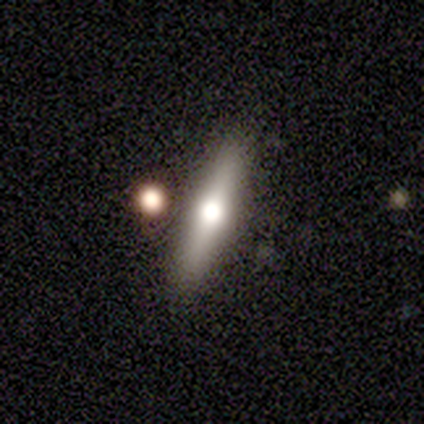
This is likely a featured or disk galaxy (75%). It is clearly viewed edge-on (100%). Edge-on bulge: clearly rounded (100%). Merging: clearly none (100%).